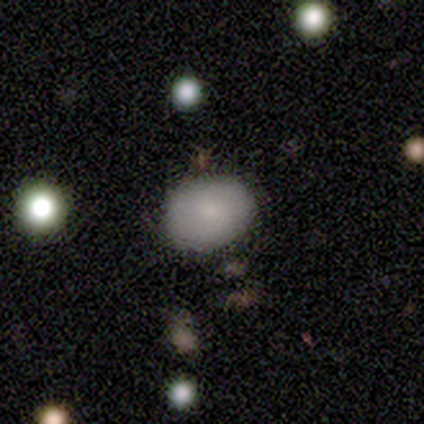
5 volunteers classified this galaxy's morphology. type=featured or disk (60%); edge-on=no (67%); bar=no (100%); spiral arms=yes (50%, tied with no); winding=tight (100%); arm count=2 (100%); bulge=small (100%); merging=none (100%).